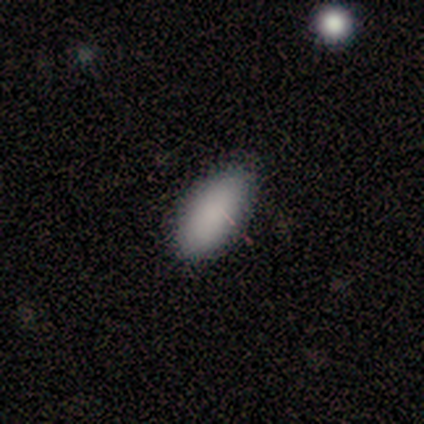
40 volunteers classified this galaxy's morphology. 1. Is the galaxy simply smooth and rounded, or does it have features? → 92% smooth, 8% star or artifact, 0% featured or disk.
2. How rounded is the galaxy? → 84% in between, 16% cigar-shaped, 0% round.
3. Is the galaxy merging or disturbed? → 78% none, 22% minor disturbance, 0% major disturbance, 0% merger.